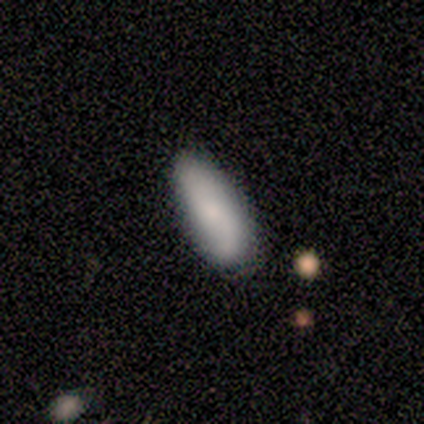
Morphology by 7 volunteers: Q: Smooth or featured?
A: smooth (86%); runner-up: featured or disk (14%)
Q: How rounded?
A: in between (67%); runner-up: cigar-shaped (33%)
Q: Merging?
A: none (57%); runner-up: minor disturbance (43%)